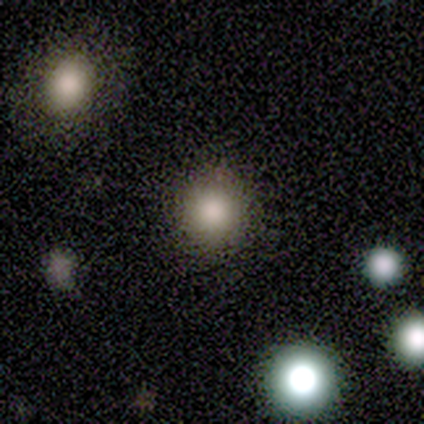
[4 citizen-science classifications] A smooth galaxy with no disk features (50%, tied with star or artifact) that is round (100%). Merging: none (100%).